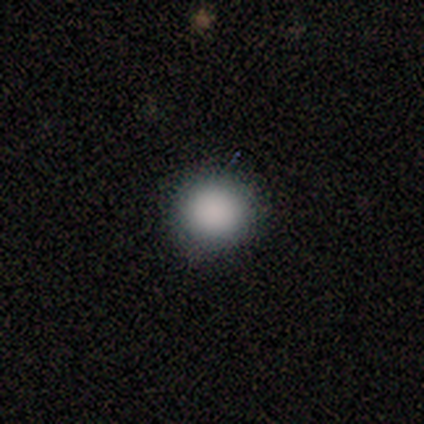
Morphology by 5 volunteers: smooth 80%, featured or disk 20%, star or artifact 0%. Down the decision tree: how rounded — round (100%); merging — none (60%).